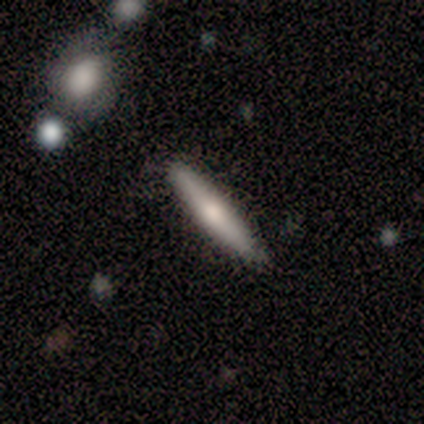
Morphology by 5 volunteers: smooth-or-featured: featured or disk: 60% | smooth: 40% | star or artifact: 0%
  disk-edge-on: yes: 100% | no: 0%
    edge-on-bulge: rounded: 67% | boxy: 33% | none: 0%
  merging: none: 60% | minor disturbance: 40% | major disturbance: 0% | merger: 0%